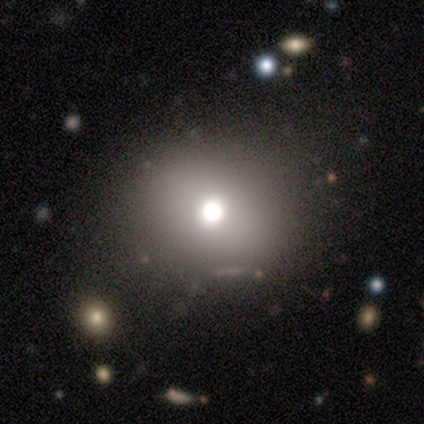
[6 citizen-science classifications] This appears to be a star or artifact, not a galaxy (50%).